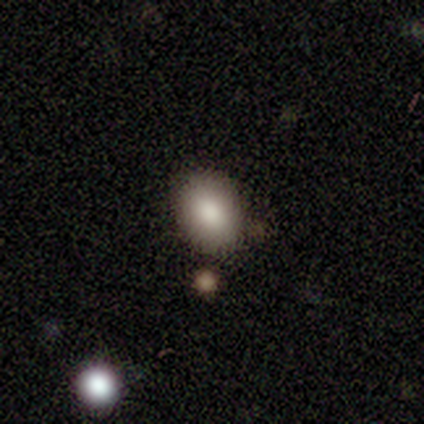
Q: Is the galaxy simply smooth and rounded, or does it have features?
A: smooth — 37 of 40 (92%).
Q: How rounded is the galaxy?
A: in between — 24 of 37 (65%).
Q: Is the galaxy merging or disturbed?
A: none — 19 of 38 (50%).